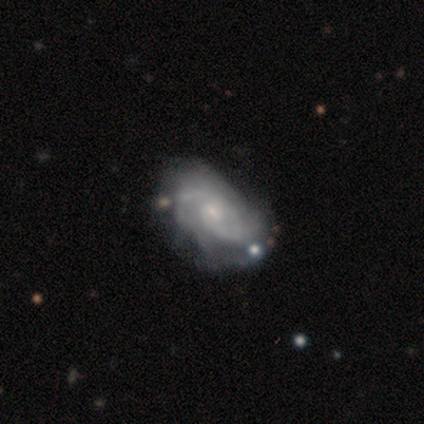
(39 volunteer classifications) A featured or disk galaxy (87%) with no bar (53%), 2 (65%) tight (47%) spiral arms (100%) and a small central bulge (74%). Merging: none (62%).